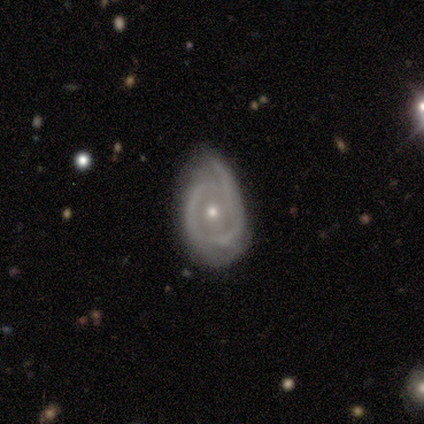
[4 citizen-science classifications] This appears to be a featured or disk galaxy (100%) with no bar (67%), no spiral arms (67%) and a moderate central bulge (67%). Merging: minor disturbance (100%).